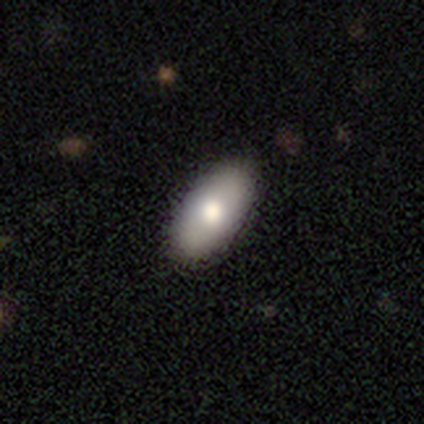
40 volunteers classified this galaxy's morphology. Q: Smooth or featured?
A: smooth (78%); runner-up: featured or disk (15%)
Q: How rounded?
A: in between (94%); runner-up: round (6%)
Q: Merging?
A: none (78%); runner-up: minor disturbance (16%)